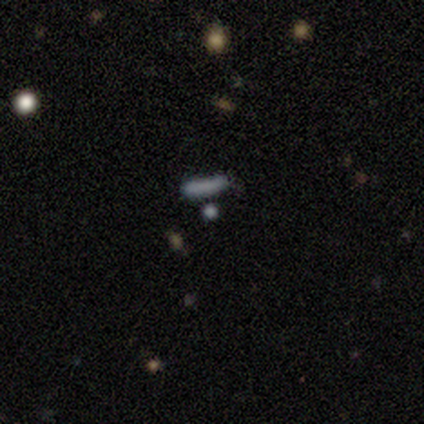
Smooth or featured: smooth — 40% (tied with featured or disk — 40%)
How rounded: cigar-shaped — 100%
Merging: none — 50% (minor disturbance — 25%)